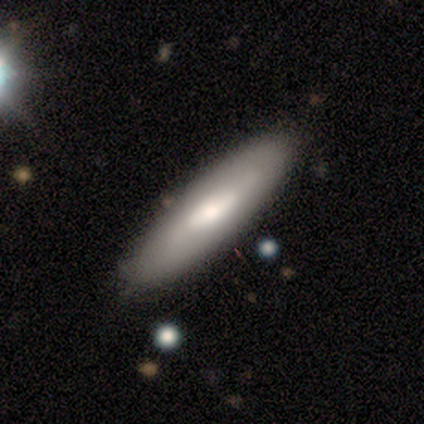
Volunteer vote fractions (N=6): smooth 50% (tied), featured or disk 50% (tied), star or artifact 0%. Down the decision tree: how rounded — cigar-shaped (100%); merging — none (83%).